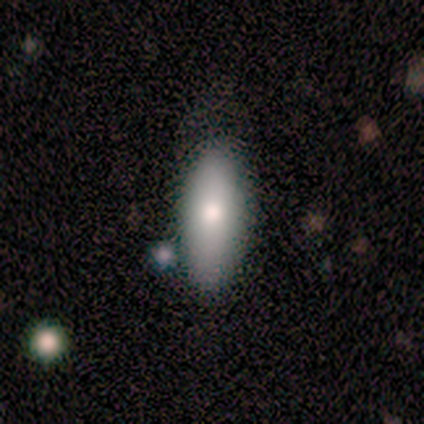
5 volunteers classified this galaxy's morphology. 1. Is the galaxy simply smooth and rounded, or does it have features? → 80% smooth, 20% star or artifact, 0% featured or disk.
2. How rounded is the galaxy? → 50% in between (tied), 50% cigar-shaped (tied), 0% round.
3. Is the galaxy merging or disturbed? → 50% none (tied), 50% minor disturbance (tied), 0% major disturbance, 0% merger.